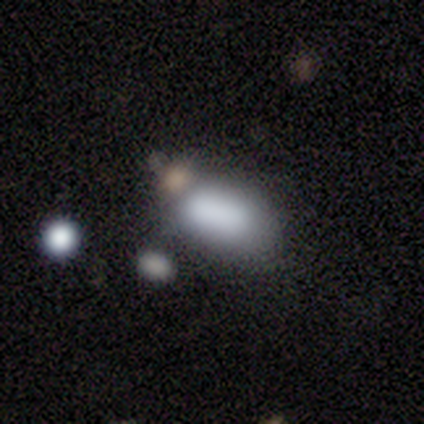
Volunteers were most divided on "merging" (2-way tie): none: 43%, merger: 43%, minor disturbance: 14%, major disturbance: 0%. More confident: smooth or featured — smooth (100%); how rounded — in between (86%).